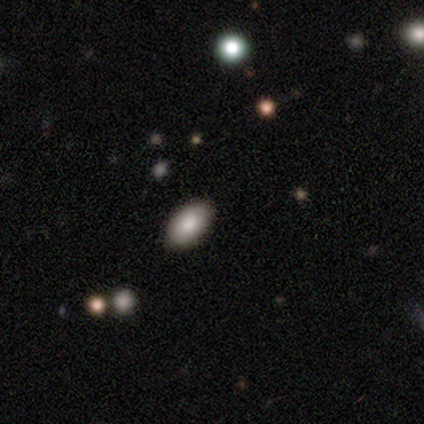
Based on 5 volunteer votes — This appears to be a smooth galaxy with no disk features (80%) that is in between round and cigar-shaped (100%). Merging: none (60%).